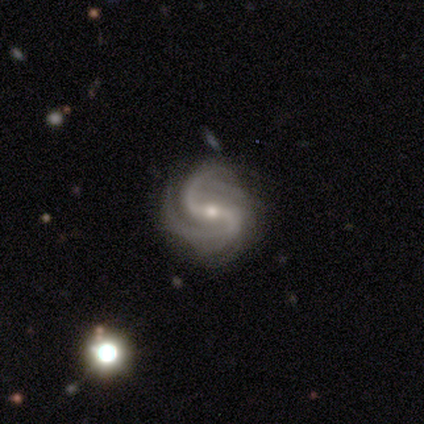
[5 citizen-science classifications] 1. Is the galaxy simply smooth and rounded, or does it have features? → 100% featured or disk, 0% smooth, 0% star or artifact.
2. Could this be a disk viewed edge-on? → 100% no, 0% yes.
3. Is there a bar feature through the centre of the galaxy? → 40% strong (tied), 40% no (tied), 20% weak.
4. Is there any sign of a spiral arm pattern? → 100% yes, 0% no.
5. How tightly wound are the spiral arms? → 60% loose, 20% tight, 20% medium.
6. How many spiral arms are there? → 80% 2, 20% can't tell, 0% 1, 0% 3, 0% 4, 0% more than 4.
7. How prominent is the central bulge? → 80% small, 20% large, 0% dominant, 0% moderate, 0% none.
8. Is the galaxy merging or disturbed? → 100% none, 0% minor disturbance, 0% major disturbance, 0% merger.